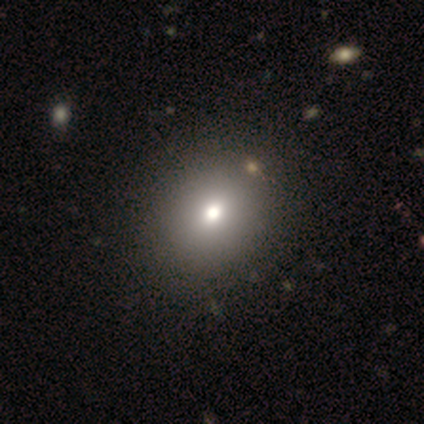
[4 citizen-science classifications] smooth 75%, star or artifact 25%, featured or disk 0%. Down the decision tree: how rounded — in between (67%); merging — none (100%).